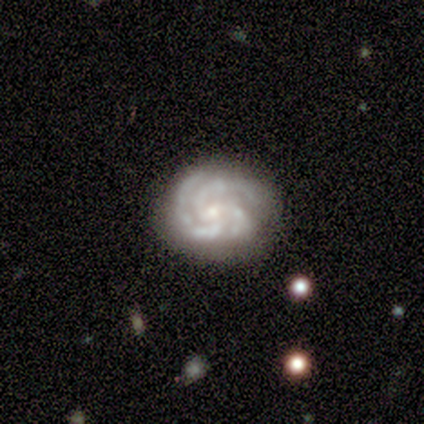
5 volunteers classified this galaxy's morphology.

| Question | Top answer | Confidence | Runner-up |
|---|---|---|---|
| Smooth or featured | featured or disk | 100% | — |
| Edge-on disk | no | 100% | — |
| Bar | no | 60% | weak (40%) |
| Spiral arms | yes | 100% | — |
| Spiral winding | tight | 100% | — |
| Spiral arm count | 3 | 80% | 4 (20%) |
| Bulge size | small | 80% | moderate (20%) |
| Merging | none | 60% | minor disturbance (40%) |